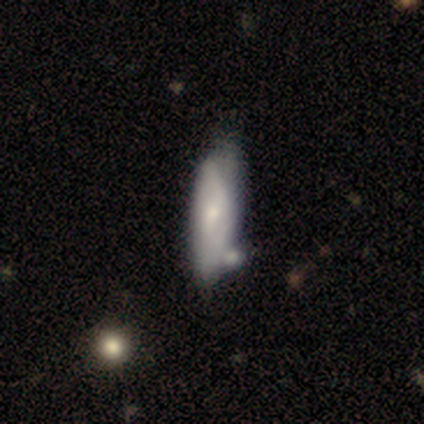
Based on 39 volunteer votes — A featured or disk galaxy (51%) with no bar (65%), medium (50%) spiral arms (59%) and a small central bulge (59%).

Vote fractions:
- Smooth or featured? featured or disk: 51% / smooth: 44% / star or artifact: 5%
- Edge-on disk? no: 85% / yes: 15%
- Bar? no: 65% / weak: 29% / strong: 6%
- Spiral arms? yes: 59% / no: 41%
- Spiral winding? medium: 50% / tight: 30% / loose: 20%
- Spiral arm count? can't tell: 70% / 2: 20% / 1: 10% / 3: 0% / 4: 0% / more than 4: 0%
- Bulge size? small: 59% / moderate: 35% / none: 6% / dominant: 0% / large: 0%
- Merging? none: 27% / minor disturbance: 24% / merger: 19% / major disturbance: 3%